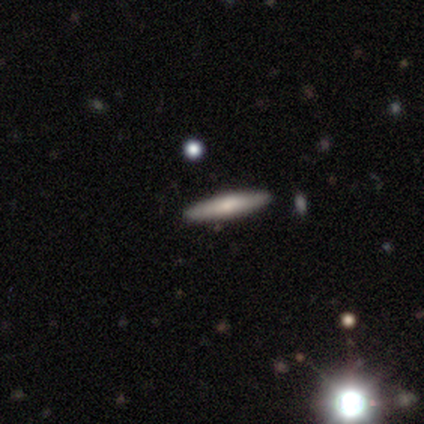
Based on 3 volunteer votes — smooth_or_featured: featured or disk (p=0.67) [alt: smooth p=0.33]
disk_edge_on: yes (p=1.00)
edge_on_bulge: rounded (p=1.00)
merging: none (p=1.00)